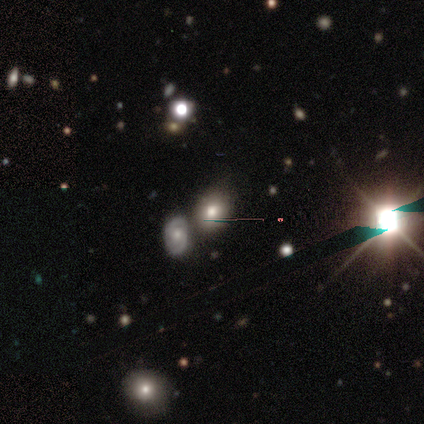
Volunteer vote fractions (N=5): Volunteers were most divided on "smooth or featured": smooth: 60%, star or artifact: 40%, featured or disk: 0%. More confident: how rounded — in between (100%); merging — merger (67%).